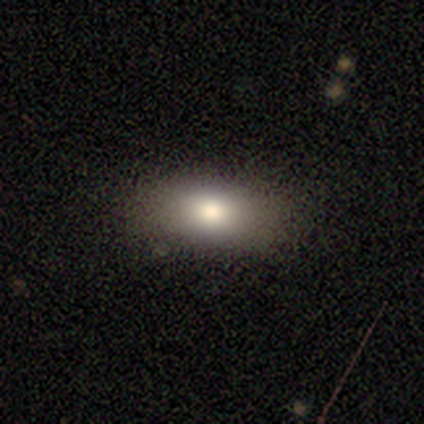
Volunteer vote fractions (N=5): smooth 100%, featured or disk 0%, star or artifact 0%. Down the decision tree: how rounded — in between (100%); merging — none (80%).